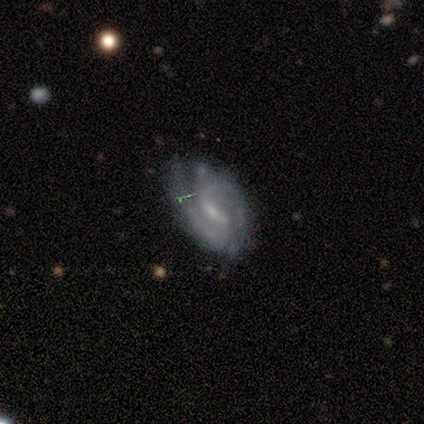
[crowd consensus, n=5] smooth-or-featured: featured or disk: 100% | smooth: 0% | star or artifact: 0%
  disk-edge-on: no: 100% | yes: 0%
    bar: strong: 40% (tied) | weak: 40% (tied) | no: 20%
    has-spiral-arms: yes: 100% | no: 0%
      spiral-winding: medium: 60% | tight: 40% | loose: 0%
      spiral-arm-count: 2: 80% | can't tell: 20% | 1: 0% | 3: 0% | 4: 0% | more than 4: 0%
    bulge-size: small: 80% | moderate: 20% | dominant: 0% | large: 0% | none: 0%
  merging: none: 60% | minor disturbance: 40% | major disturbance: 0% | merger: 0%